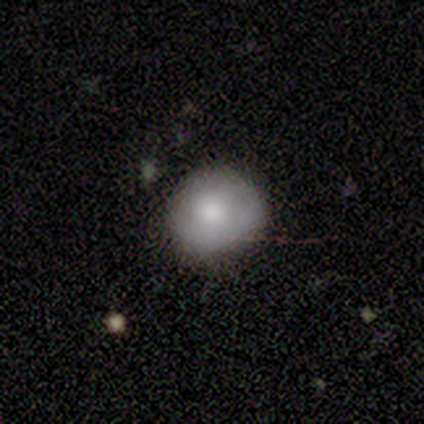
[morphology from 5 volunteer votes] Smooth or featured? 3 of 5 (60%) said smooth. How rounded? 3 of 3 (100%) said round. Merging? 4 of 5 (80%) said none.